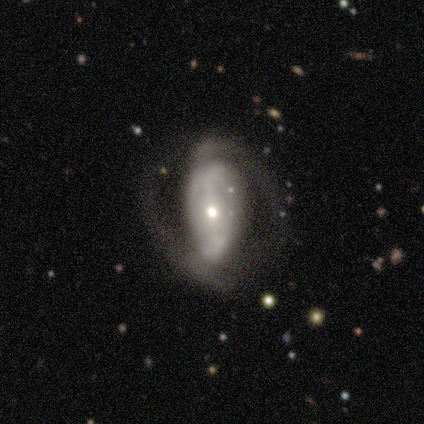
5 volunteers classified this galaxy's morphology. Smooth or featured? featured or disk (60%)
Edge-on disk? no (100%)
Bar? weak (67%)
Spiral arms? yes (67%)
Spiral winding? medium (50%, tied with loose)
Spiral arm count? 2 (100%)
Bulge size? moderate (67%)
Merging? none (75%)